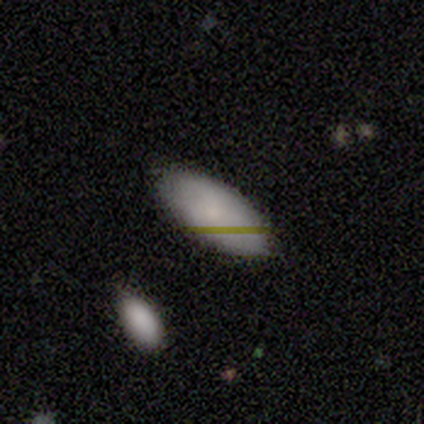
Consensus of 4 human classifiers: Volunteers were most divided on "smooth or featured": smooth: 75%, featured or disk: 25%, star or artifact: 0%. More confident: how rounded — in between (100%); merging — none (100%).